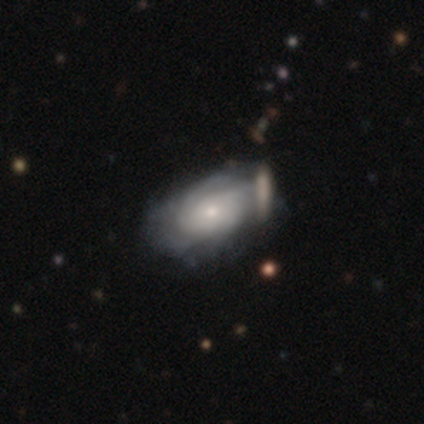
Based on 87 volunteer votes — A featured or disk galaxy (71%) with no bar (80%), tight (67%) spiral arms (92%) and a small central bulge (66%). Merging: none (63%).